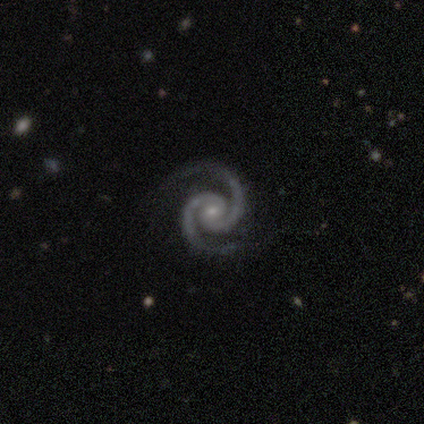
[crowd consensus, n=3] Q: Smooth or featured?
A: featured or disk (100%)
Q: Edge-on disk?
A: no (100%)
Q: Bar?
A: strong (67%); runner-up: no (33%)
Q: Spiral arms?
A: yes (100%)
Q: Spiral winding?
A: tight (67%); runner-up: medium (33%)
Q: Spiral arm count?
A: 2 (100%)
Q: Bulge size?
A: moderate (67%); runner-up: small (33%)
Q: Merging?
A: none (100%)